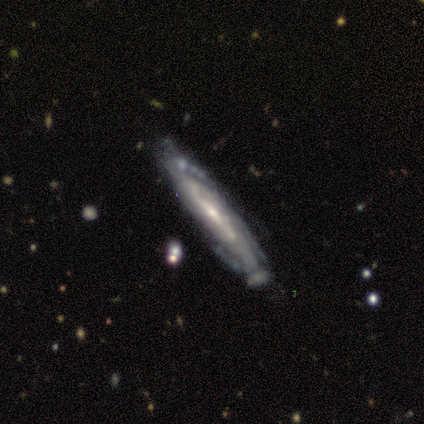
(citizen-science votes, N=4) Overall: featured or disk (100%). Edge-on disk: no (75%). Bar: weak (67%; no 33%). Spiral arms: yes (100%). Spiral arm count: can't tell (67%; 2 33%). Spiral winding: medium (67%; tight 33%). Bulge size: small (67%; moderate 33%). Merging: none (75%).